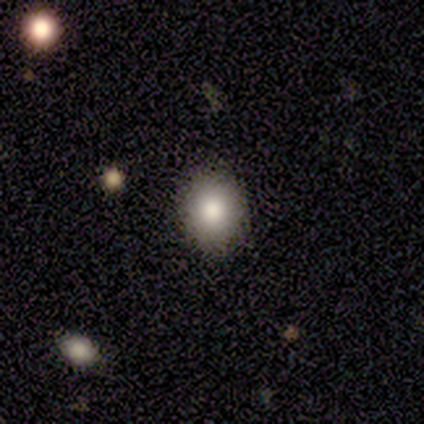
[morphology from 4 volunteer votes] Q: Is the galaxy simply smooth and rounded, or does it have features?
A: smooth — 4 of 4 (100%).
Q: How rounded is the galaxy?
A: in between — 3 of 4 (75%).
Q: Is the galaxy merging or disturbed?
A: none — 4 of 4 (100%).